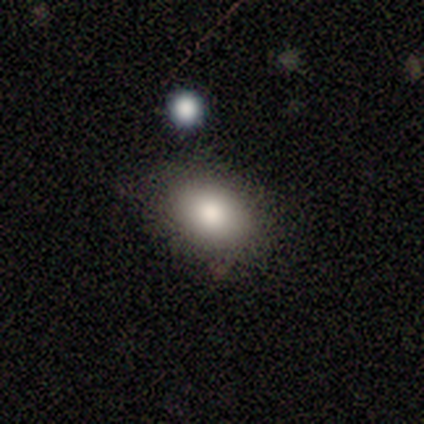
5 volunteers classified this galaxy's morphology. Q: Smooth or featured?
A: smooth (100%)
Q: How rounded?
A: in between (100%)
Q: Merging?
A: none (100%)